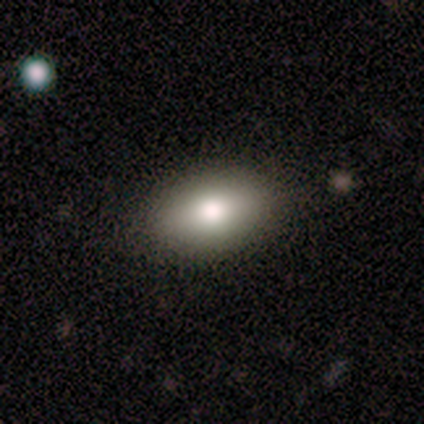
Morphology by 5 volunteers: smooth 100%, featured or disk 0%, star or artifact 0%. Down the decision tree: how rounded — in between (100%); merging — none (80%).